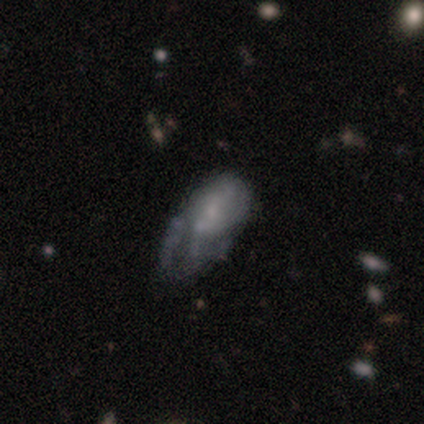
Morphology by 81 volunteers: smooth-or-featured: featured or disk: 51% | smooth: 42% | star or artifact: 7%
  disk-edge-on: no: 100% | yes: 0%
    bar: no: 78% | weak: 20% | strong: 2%
    has-spiral-arms: no: 71% | yes: 29%
    bulge-size: small: 54% | none: 39% | moderate: 7% | dominant: 0% | large: 0%
  merging: major disturbance: 40% | minor disturbance: 33% | none: 19% | merger: 8%